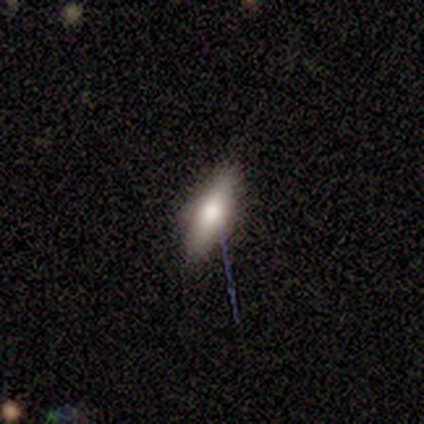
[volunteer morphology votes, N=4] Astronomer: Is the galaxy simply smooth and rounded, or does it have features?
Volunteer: smooth — 50%, tied with featured or disk at 50%.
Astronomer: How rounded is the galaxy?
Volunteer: in between — 50%, tied with cigar-shaped at 50%.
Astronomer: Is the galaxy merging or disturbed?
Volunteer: none — 50%, tied with minor disturbance at 50%.